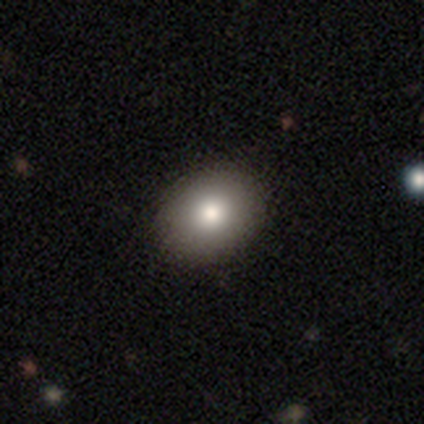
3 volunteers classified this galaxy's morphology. Smooth or featured: smooth — 67% (star or artifact — 33%)
How rounded: round — 50% (tied with in between — 50%)
Merging: none — 100%